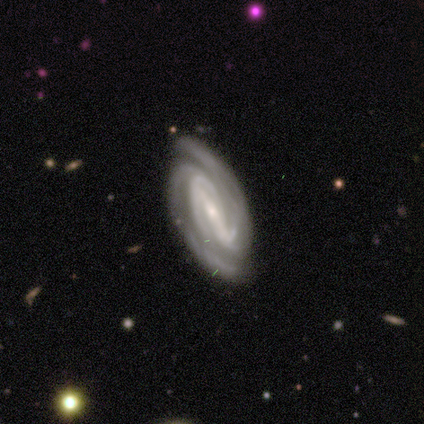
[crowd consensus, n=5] This appears to be a featured or disk galaxy (100%) with a strong bar (50%, tied with weak), 2 (25%, tied with 3, 4 and can't tell) tight (50%, tied with medium) spiral arms (100%) and a small central bulge (75%). Merging: none (100%).